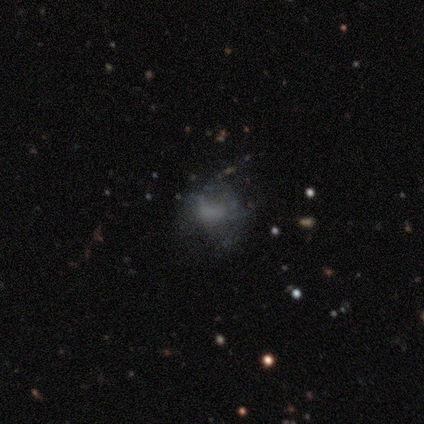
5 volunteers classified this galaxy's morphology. smooth_or_featured: smooth (p=0.80) [alt: featured or disk p=0.20]
how_rounded: round (p=0.50) [tied with: in between p=0.50]
merging: none (p=0.40) [tied with: minor disturbance p=0.40]